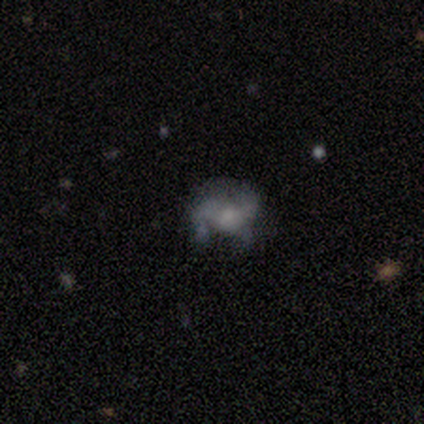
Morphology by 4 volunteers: Q: Smooth or featured?
A: featured or disk (75%); runner-up: smooth (25%)
Q: Edge-on disk?
A: no (100%)
Q: Bar?
A: no (67%); runner-up: strong (33%)
Q: Spiral arms?
A: yes (100%)
Q: Spiral winding?
A: loose (100%)
Q: Spiral arm count?
A: can't tell (67%); runner-up: 2 (33%)
Q: Bulge size?
A: large (33%); tied with: moderate (33%); small (33%)
Q: Merging?
A: minor disturbance (50%); tied with: major disturbance (50%)